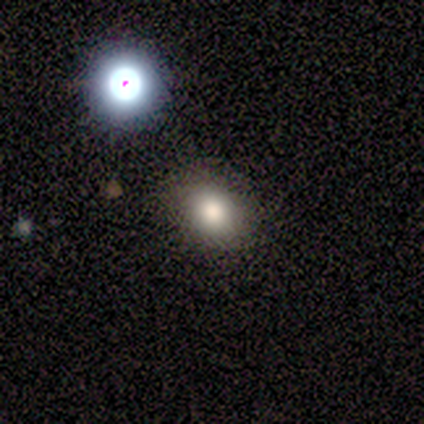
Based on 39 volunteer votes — smooth-or-featured: smooth: 69% | star or artifact: 26% | featured or disk: 5%
  how-rounded: in between: 52% | round: 48% | cigar-shaped: 0%
  merging: none: 90% | minor disturbance: 7% | merger: 3% | major disturbance: 0%